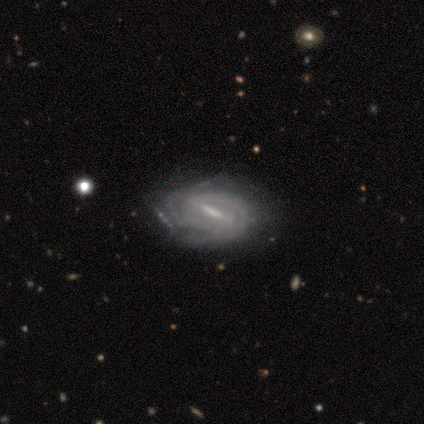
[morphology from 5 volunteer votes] Overall: featured or disk (80%). Edge-on disk: no (75%). Bar: strong (100%). Spiral arms: yes (100%). Spiral arm count: 2 (67%; 3 33%). Spiral winding: tight (67%; medium 33%). Bulge size: moderate (67%; none 33%). Merging: none (100%).